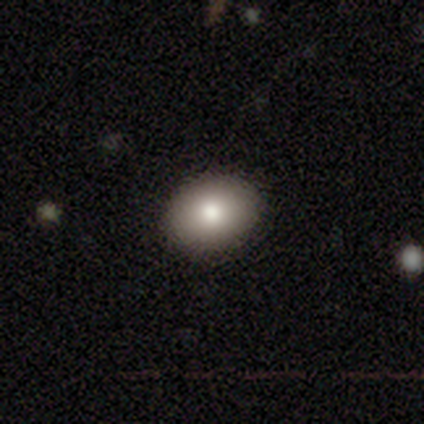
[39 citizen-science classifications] smooth-or-featured: smooth: 85% | star or artifact: 13% | featured or disk: 3%
  how-rounded: in between: 61% | round: 39% | cigar-shaped: 0%
  merging: none: 88% | minor disturbance: 9% | major disturbance: 3% | merger: 0%